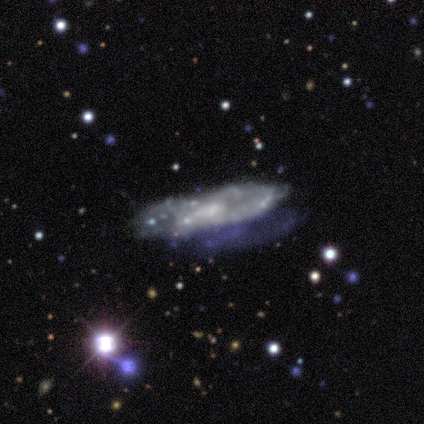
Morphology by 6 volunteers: smooth-or-featured: featured or disk: 83% | smooth: 17% | star or artifact: 0%
  disk-edge-on: no: 100% | yes: 0%
    bar: weak: 60% | no: 40% | strong: 0%
    has-spiral-arms: no: 80% | yes: 20%
    bulge-size: small: 80% | moderate: 20% | dominant: 0% | large: 0% | none: 0%
  merging: none: 83% | minor disturbance: 17% | major disturbance: 0% | merger: 0%